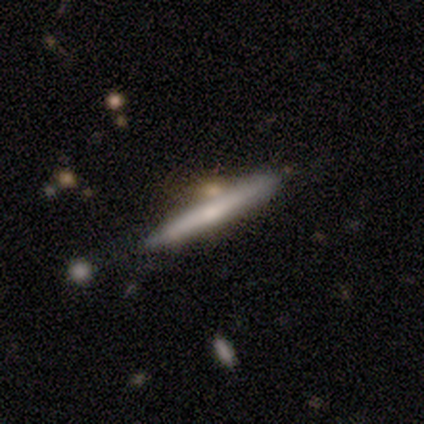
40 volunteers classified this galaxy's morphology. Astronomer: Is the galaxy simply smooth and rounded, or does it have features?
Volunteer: featured or disk — 65%.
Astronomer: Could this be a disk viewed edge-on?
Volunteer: yes — 100%.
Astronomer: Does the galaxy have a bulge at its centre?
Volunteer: none — 50%, tied with rounded at 50%.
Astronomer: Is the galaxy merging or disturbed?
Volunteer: none — 64%.